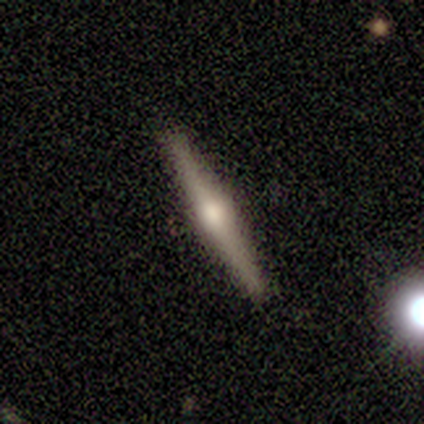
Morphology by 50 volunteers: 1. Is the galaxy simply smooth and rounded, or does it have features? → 70% featured or disk, 28% smooth, 2% star or artifact.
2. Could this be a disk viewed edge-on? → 100% yes, 0% no.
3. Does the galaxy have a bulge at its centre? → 97% rounded, 3% boxy, 0% none.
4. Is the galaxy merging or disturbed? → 88% none, 6% minor disturbance, 4% merger, 2% major disturbance.